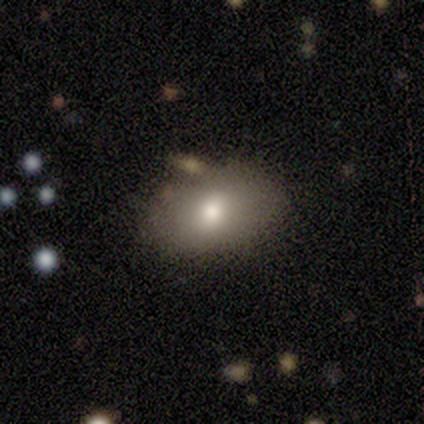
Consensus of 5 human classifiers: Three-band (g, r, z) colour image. It shows a smooth galaxy with no disk features (80%) that is in between round and cigar-shaped (100%). Merging: none (60%).